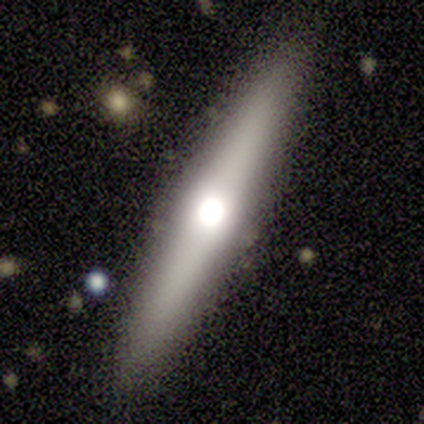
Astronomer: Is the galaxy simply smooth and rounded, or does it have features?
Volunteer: smooth — 60% (runner-up: featured or disk, 40%).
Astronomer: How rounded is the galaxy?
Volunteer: cigar-shaped — 100%.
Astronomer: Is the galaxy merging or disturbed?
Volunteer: none — 100%.